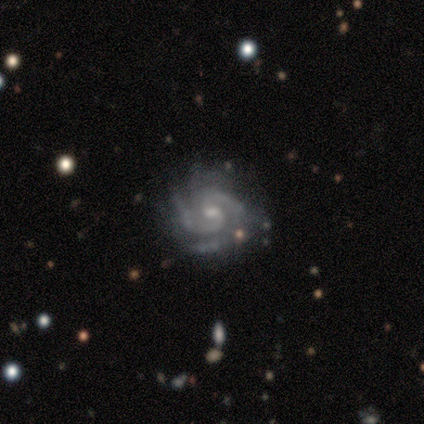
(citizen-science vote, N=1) Smooth or featured? featured or disk (100%)
Edge-on disk? no (100%)
Bar? no (100%)
Spiral arms? yes (100%)
Spiral winding? medium (100%)
Spiral arm count? 3 (100%)
Bulge size? moderate (100%)
Merging? minor disturbance (100%)